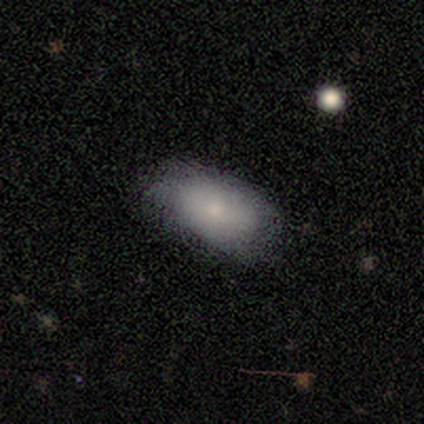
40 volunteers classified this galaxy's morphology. Volunteers were most divided on "smooth or featured": smooth: 72%, featured or disk: 22%, star or artifact: 5%. More confident: how rounded — in between (97%); merging — none (74%).